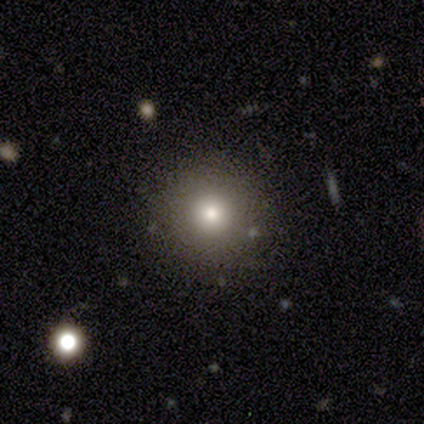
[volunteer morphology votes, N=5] Smooth or featured: smooth — 40% (tied with featured or disk — 40%)
How rounded: round — 100%
Merging: none — 75% (merger — 25%)